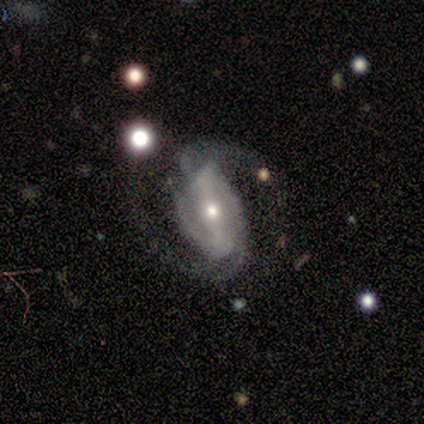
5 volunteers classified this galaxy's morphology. Q: Smooth or featured?
A: featured or disk (100%)
Q: Edge-on disk?
A: no (80%); runner-up: yes (20%)
Q: Bar?
A: weak (50%); runner-up: strong (25%)
Q: Spiral arms?
A: yes (100%)
Q: Spiral winding?
A: medium (50%); runner-up: tight (25%)
Q: Spiral arm count?
A: 2 (75%); runner-up: 3 (25%)
Q: Bulge size?
A: moderate (50%); tied with: small (50%)
Q: Merging?
A: none (60%); runner-up: minor disturbance (20%)